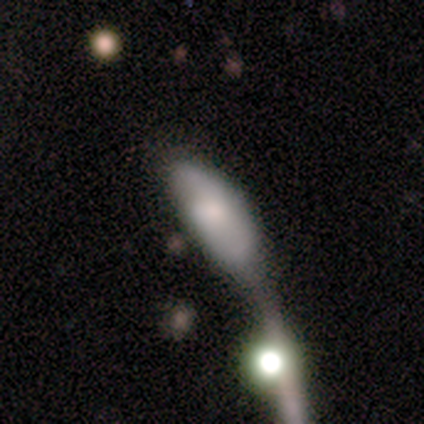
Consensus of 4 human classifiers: Smooth or featured?
  - smooth: 50% * (tied)
  - featured or disk: 50% * (tied)
  - star or artifact: 0%
How rounded?
  - in between: 100% *
  - round: 0%
  - cigar-shaped: 0%
Merging?
  - merger: 75% *
  - major disturbance: 25%
  - none: 0%
  - minor disturbance: 0%